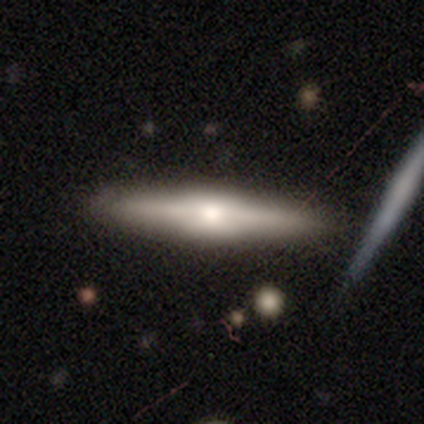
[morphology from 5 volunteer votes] type=featured or disk (60%); edge-on=yes (100%); edge-on bulge=rounded (67%); merging=none (100%).